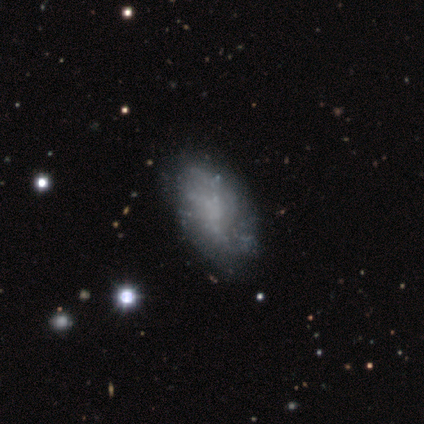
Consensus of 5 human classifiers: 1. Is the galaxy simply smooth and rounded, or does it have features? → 60% star or artifact, 40% featured or disk, 0% smooth.